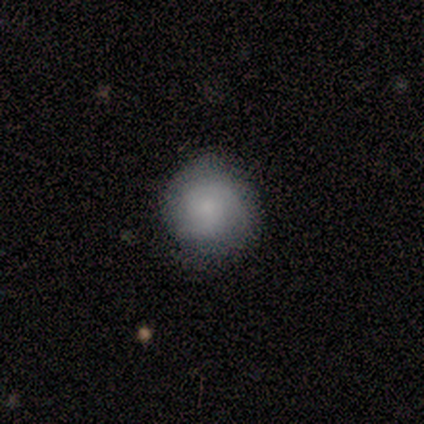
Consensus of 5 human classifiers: This is marginally a smooth galaxy (40%, tied with featured or disk). How rounded: clearly round (100%). Merging: likely none (75%).